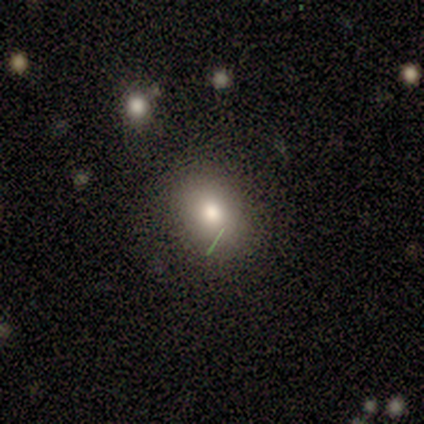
This appears to be a smooth galaxy with no disk features (100%) that is in between round and cigar-shaped (80%). Merging: none (100%).